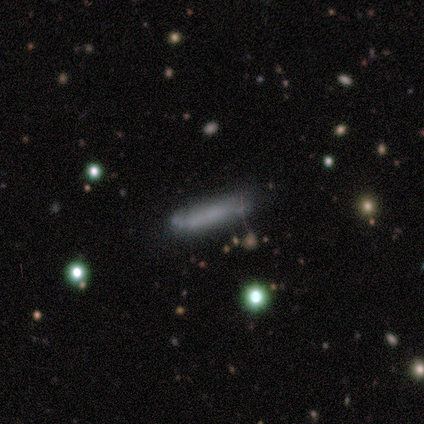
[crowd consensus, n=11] Smooth or featured? smooth (64%)
How rounded? cigar-shaped (71%)
Merging? none (80%)